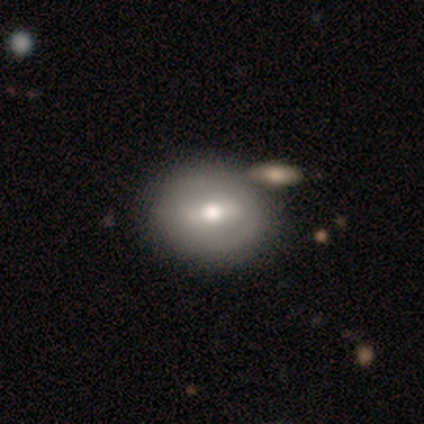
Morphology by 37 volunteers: Smooth or featured?
  - featured or disk: 59% *
  - smooth: 38%
  - star or artifact: 3%
Edge-on disk?
  - no: 95% *
  - yes: 5%
Bar?
  - weak: 52% *
  - strong: 33%
  - no: 14%
Spiral arms?
  - no: 62% *
  - yes: 38%
Bulge size?
  - moderate: 81% *
  - large: 10%
  - small: 10%
  - dominant: 0%
  - none: 0%
Merging?
  - none: 67% *
  - minor disturbance: 8%
  - merger: 6%
  - major disturbance: 0%